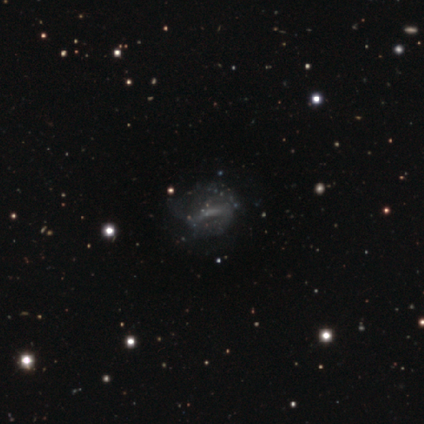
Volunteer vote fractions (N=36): This is likely a featured or disk galaxy (75%). It is clearly not viewed edge-on (93%). Bar: possibly no (56%). Spiral arm pattern: likely no (64%). Central bulge: likely none (68%). Merging: possibly none (47%).